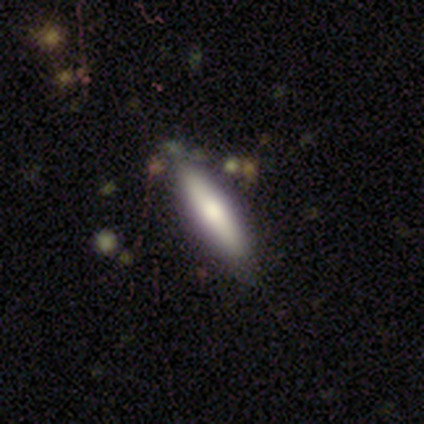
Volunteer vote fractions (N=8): smooth-or-featured: featured or disk: 50% | smooth: 38% | star or artifact: 12%
  disk-edge-on: yes: 100% | no: 0%
    edge-on-bulge: rounded: 75% | boxy: 25% | none: 0%
  merging: none: 71% | minor disturbance: 14% | merger: 14% | major disturbance: 0%